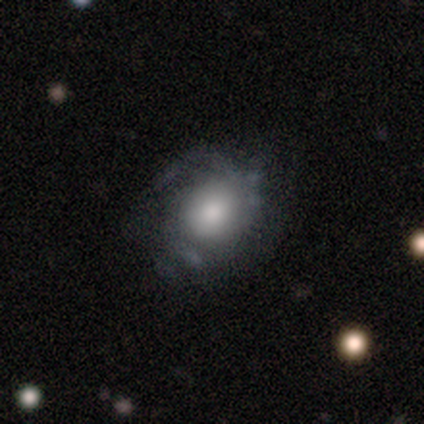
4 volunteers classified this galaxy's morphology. Smooth or featured? 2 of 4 (50%) said smooth. How rounded? 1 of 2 (50%, tied with cigar-shaped) said in between. Merging? 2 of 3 (67%) said none.